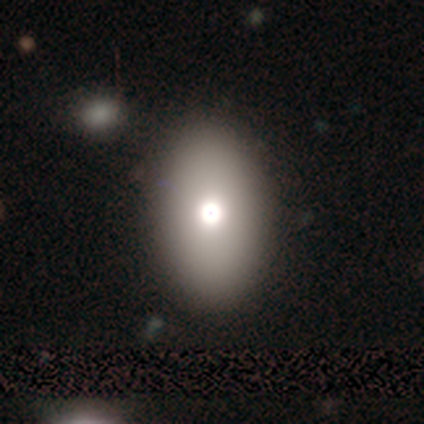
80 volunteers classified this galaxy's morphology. Q: Smooth or featured?
A: smooth (81%); runner-up: featured or disk (12%)
Q: How rounded?
A: in between (85%); runner-up: round (15%)
Q: Merging?
A: none (47%); runner-up: merger (4%)